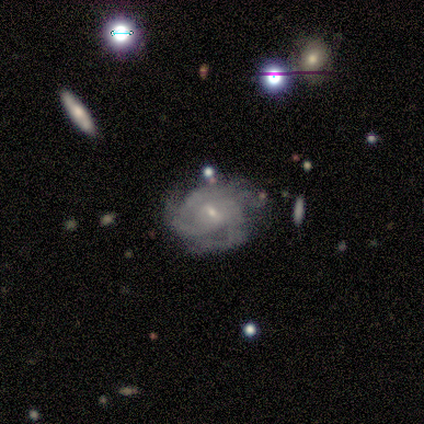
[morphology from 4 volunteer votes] Volunteers were most divided on "bar": weak: 67%, no: 33%, strong: 0%. More confident: edge-on disk — no (100%); spiral arms — yes (100%); smooth or featured — featured or disk (75%); spiral winding — medium (67%); spiral arm count — can't tell (67%); bulge size — small (67%); merging — major disturbance (67%).